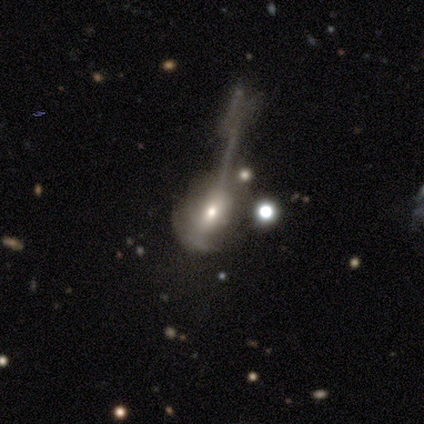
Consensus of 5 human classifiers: Smooth or featured?
  - featured or disk: 60% *
  - smooth: 40%
  - star or artifact: 0%
Edge-on disk?
  - no: 100% *
  - yes: 0%
Bar?
  - no: 100% *
  - strong: 0%
  - weak: 0%
Spiral arms?
  - yes: 67% *
  - no: 33%
Spiral winding?
  - loose: 100% *
  - tight: 0%
  - medium: 0%
Spiral arm count?
  - 1: 50% * (tied)
  - can't tell: 50% * (tied)
  - 2: 0%
  - 3: 0%
  - 4: 0%
  - more than 4: 0%
Bulge size?
  - moderate: 67% *
  - small: 33%
  - dominant: 0%
  - large: 0%
  - none: 0%
Merging?
  - major disturbance: 80% *
  - none: 20%
  - minor disturbance: 0%
  - merger: 0%